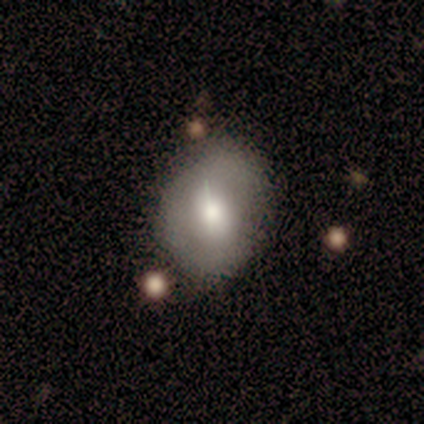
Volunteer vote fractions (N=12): This is marginally a smooth galaxy (42%). How rounded: likely in between (60%). Merging: possibly minor disturbance (56%).